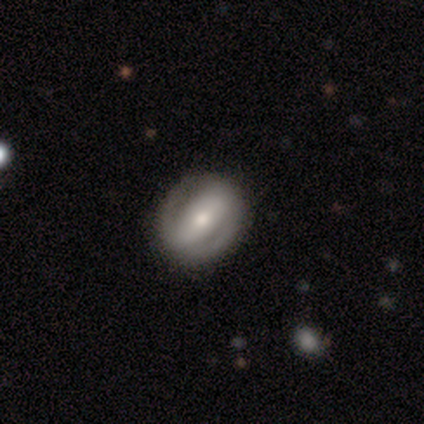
Smooth or featured? 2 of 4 (50%, tied with featured or disk) said smooth. How rounded? 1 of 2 (50%, tied with in between) said round. Merging? 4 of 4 (100%) said none.